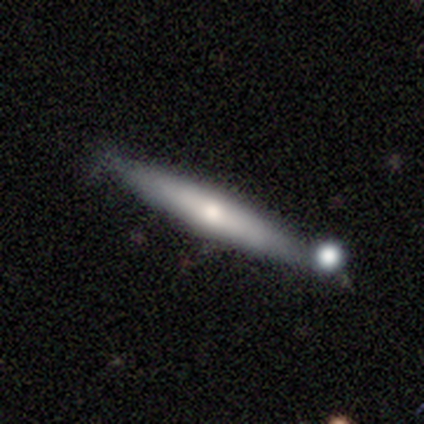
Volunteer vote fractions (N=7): This appears to be a featured or disk galaxy (71%) viewed edge-on (100%) with a rounded central bulge (100%). Merging: none (71%).